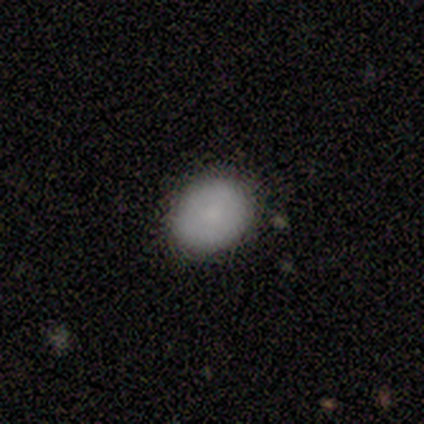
smooth_or_featured: smooth (p=0.80) [alt: featured or disk p=0.20]
how_rounded: round (p=0.75) [alt: in between p=0.25]
merging: none (p=1.00)